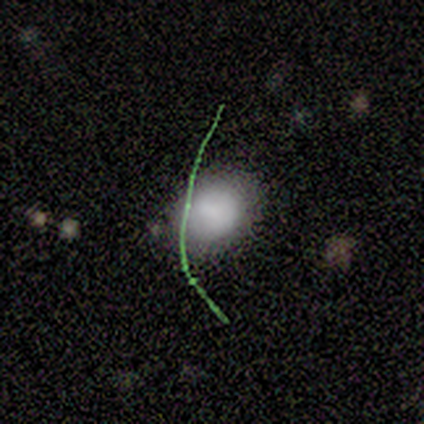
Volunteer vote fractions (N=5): smooth_or_featured: smooth (p=1.00)
how_rounded: in between (p=0.60) [alt: round p=0.40]
merging: none (p=0.80) [alt: minor disturbance p=0.20]